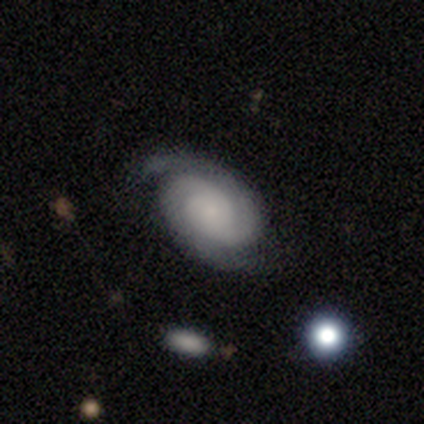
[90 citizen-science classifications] smooth-or-featured: featured or disk: 90% | smooth: 6% | star or artifact: 4%
  disk-edge-on: no: 96% | yes: 4%
    bar: no: 78% | weak: 18% | strong: 4%
    has-spiral-arms: yes: 96% | no: 4%
      spiral-winding: tight: 69% | medium: 29% | loose: 1%
      spiral-arm-count: 2: 85% | can't tell: 15% | 1: 0% | 3: 0% | 4: 0% | more than 4: 0%
    bulge-size: small: 60% | none: 22% | moderate: 9% | large: 6% | dominant: 3%
  merging: none: 83% | minor disturbance: 12% | major disturbance: 5% | merger: 1%